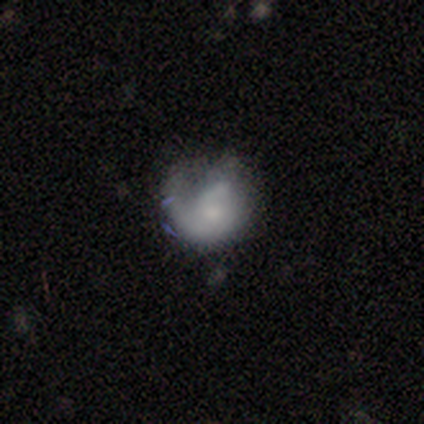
Volunteers were most divided on "spiral arms" (2-way tie): yes: 50%, no: 50%. Remaining: edge-on disk — no (100%); bar — no (67%); spiral winding — medium (67%); spiral arm count — 1 (67%); smooth or featured — featured or disk (60%); bulge size — small (50%); merging — none (40%).